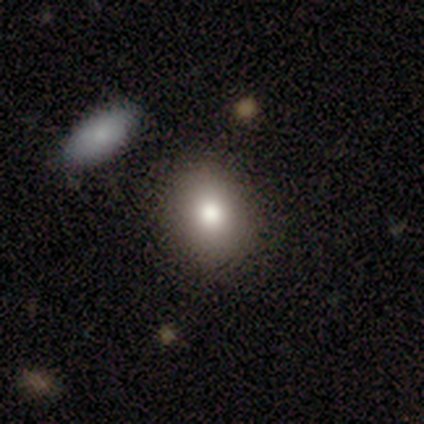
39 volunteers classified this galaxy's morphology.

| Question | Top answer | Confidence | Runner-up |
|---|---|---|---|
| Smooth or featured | smooth | 85% | star or artifact (10%) |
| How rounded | round | 55% | in between (45%) |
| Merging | none | 83% | minor disturbance (11%) |